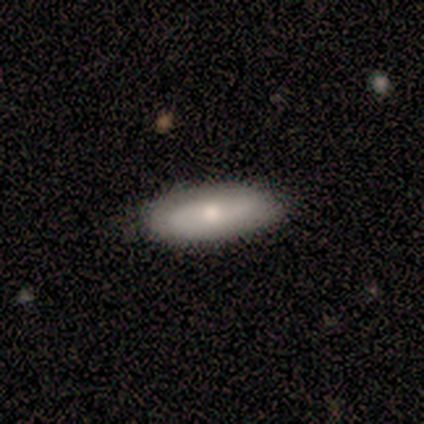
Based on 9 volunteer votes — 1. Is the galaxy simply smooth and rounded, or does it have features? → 78% smooth, 22% featured or disk, 0% star or artifact.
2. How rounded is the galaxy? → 86% in between, 14% cigar-shaped, 0% round.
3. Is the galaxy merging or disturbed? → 78% none, 22% minor disturbance, 0% major disturbance, 0% merger.